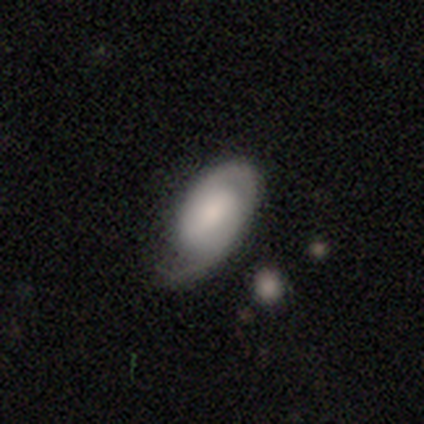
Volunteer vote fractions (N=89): This is possibly a featured or disk galaxy (56%). It is clearly not viewed edge-on (92%). Bar: marginally weak (43%). Spiral arm pattern: clearly yes (85%). Spiral arm count: possibly 2 (56%). Spiral winding: possibly tight (59%). Central bulge: marginally moderate (41%). Merging: possibly none (49%).